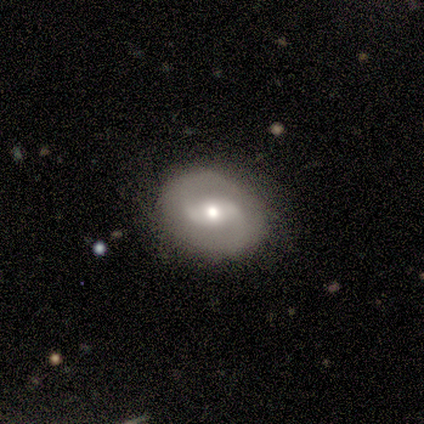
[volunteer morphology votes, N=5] Smooth or featured? 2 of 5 (40%, tied with featured or disk) said smooth. How rounded? 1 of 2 (50%, tied with in between) said round. Merging? 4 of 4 (100%) said none.